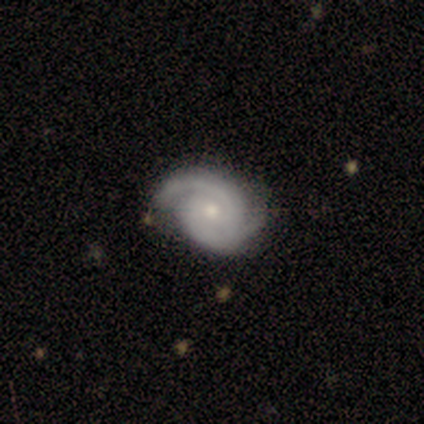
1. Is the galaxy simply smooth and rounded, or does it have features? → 100% featured or disk, 0% smooth, 0% star or artifact.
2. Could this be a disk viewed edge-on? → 100% no, 0% yes.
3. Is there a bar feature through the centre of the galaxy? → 100% no, 0% strong, 0% weak.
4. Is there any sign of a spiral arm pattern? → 100% yes, 0% no.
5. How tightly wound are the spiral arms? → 80% tight, 20% medium, 0% loose.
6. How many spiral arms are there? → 80% 2, 20% can't tell, 0% 1, 0% 3, 0% 4, 0% more than 4.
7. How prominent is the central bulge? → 60% moderate, 40% small, 0% dominant, 0% large, 0% none.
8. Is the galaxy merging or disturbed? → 60% none, 40% major disturbance, 0% minor disturbance, 0% merger.